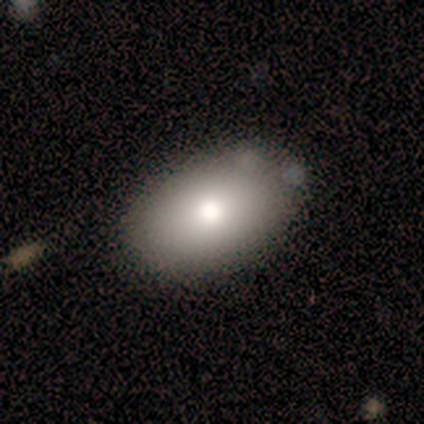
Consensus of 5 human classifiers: This appears to be a smooth galaxy with no disk features (100%) that is in between round and cigar-shaped (100%). Merging: none (80%).